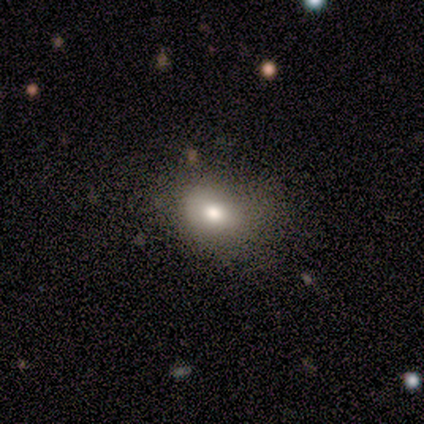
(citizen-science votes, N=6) Overall: smooth (50%, tied with featured or disk). How rounded: in between (67%; round 33%). Merging: none (83%).